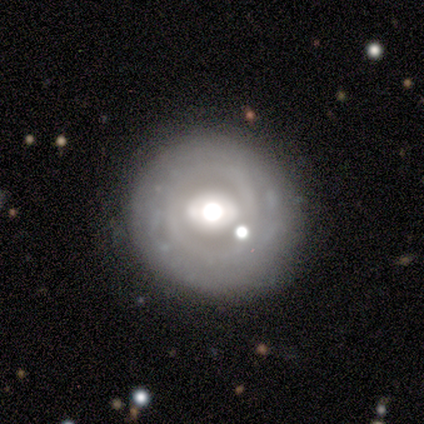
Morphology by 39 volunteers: A featured or disk galaxy (62%) with a strong bar (43%), no spiral arms (65%) and a large central bulge (48%, tied with moderate).

Vote fractions:
- Smooth or featured? featured or disk: 62% / smooth: 31% / star or artifact: 8%
- Edge-on disk? no: 96% / yes: 4%
- Bar? strong: 43% / no: 30% / weak: 26%
- Spiral arms? no: 65% / yes: 35%
- Bulge size? large: 48% (tied) / moderate: 48% (tied) / dominant: 4% / small: 0% / none: 0%
- Merging? none: 83% / minor disturbance: 8% / merger: 6% / major disturbance: 3%